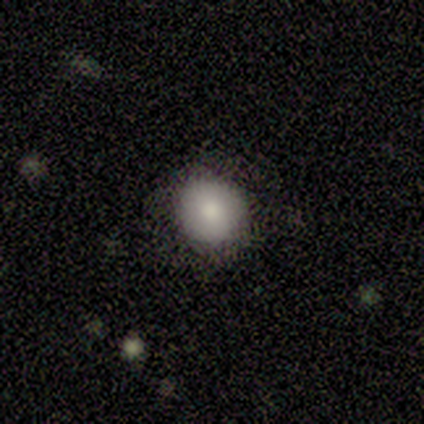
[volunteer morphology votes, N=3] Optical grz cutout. It shows a smooth galaxy with no disk features (100%) that is round (100%). Merging: none (100%).